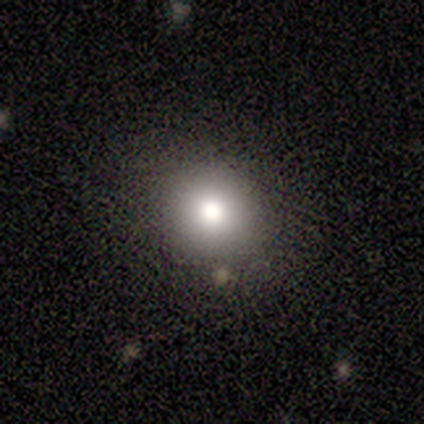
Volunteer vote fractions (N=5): This is clearly a smooth galaxy (80%). How rounded: clearly round (100%). Merging: clearly none (100%).